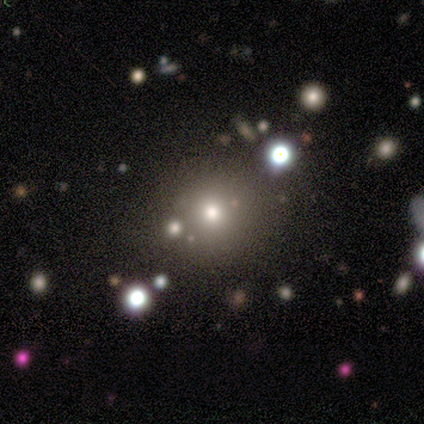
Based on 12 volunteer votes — This is likely a smooth galaxy (75%). How rounded: clearly round (100%). Merging: clearly none (89%).